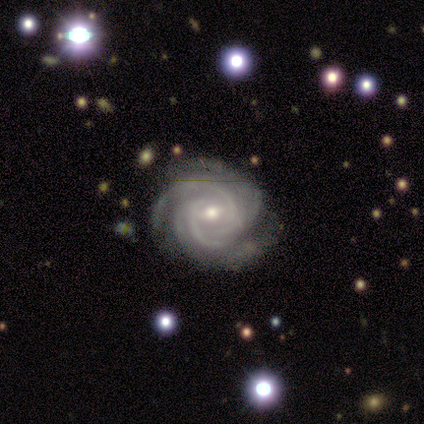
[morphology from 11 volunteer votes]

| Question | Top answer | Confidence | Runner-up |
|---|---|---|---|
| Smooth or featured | featured or disk | 82% | smooth (18%) |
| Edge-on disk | no | 100% | — |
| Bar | weak | 56% | no (44%) |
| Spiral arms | yes | 100% | — |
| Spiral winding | tight | 78% | medium (22%) |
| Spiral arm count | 3 | 33% | 4 (22%) |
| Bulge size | moderate | 78% | small (22%) |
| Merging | none | 91% | minor disturbance (9%) |